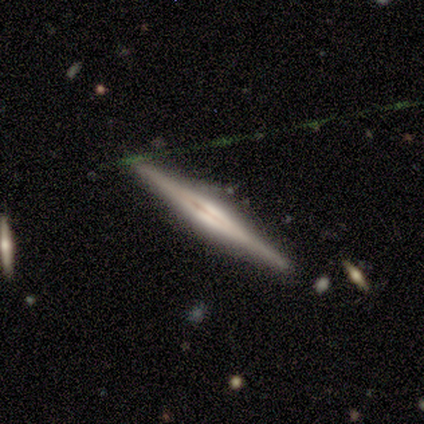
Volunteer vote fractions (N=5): A featured or disk galaxy (100%) viewed edge-on (100%) with a rounded central bulge (80%). Merging: none (80%).